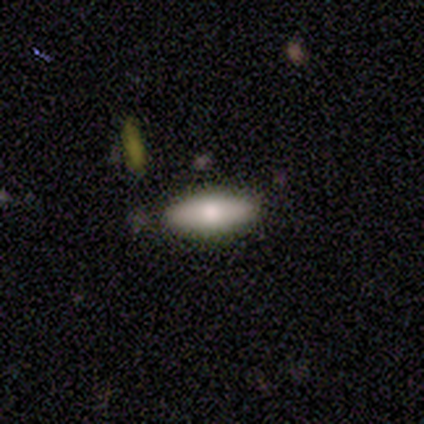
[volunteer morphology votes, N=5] Smooth or featured? smooth (100%)
How rounded? in between (80%)
Merging? none (100%)